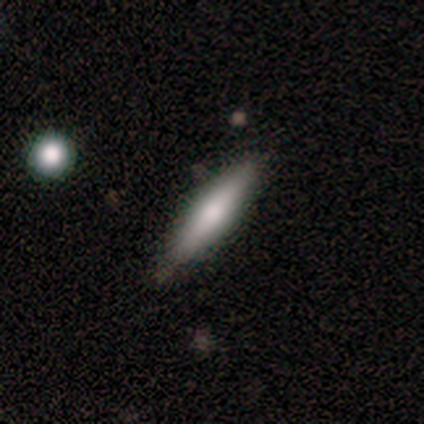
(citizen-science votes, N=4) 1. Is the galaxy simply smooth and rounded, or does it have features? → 75% smooth, 25% featured or disk, 0% star or artifact.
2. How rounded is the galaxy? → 100% cigar-shaped, 0% round, 0% in between.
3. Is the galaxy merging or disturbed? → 100% none, 0% minor disturbance, 0% major disturbance, 0% merger.